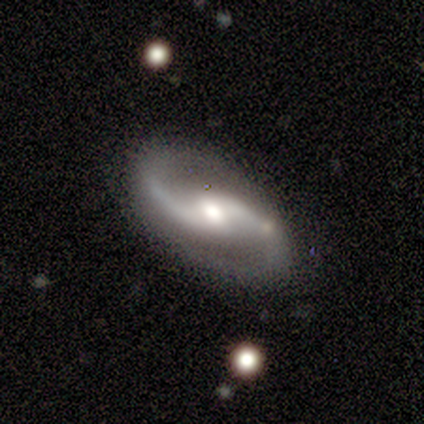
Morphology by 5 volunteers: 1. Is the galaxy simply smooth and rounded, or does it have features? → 80% featured or disk, 20% star or artifact, 0% smooth.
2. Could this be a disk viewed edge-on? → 100% no, 0% yes.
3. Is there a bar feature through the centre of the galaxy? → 100% weak, 0% strong, 0% no.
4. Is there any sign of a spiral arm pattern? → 100% yes, 0% no.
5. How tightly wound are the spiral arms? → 50% medium (tied), 50% loose (tied), 0% tight.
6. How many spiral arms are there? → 100% 2, 0% 1, 0% 3, 0% 4, 0% more than 4, 0% can't tell.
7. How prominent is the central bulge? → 100% moderate, 0% dominant, 0% large, 0% small, 0% none.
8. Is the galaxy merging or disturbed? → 75% none, 25% minor disturbance, 0% major disturbance, 0% merger.